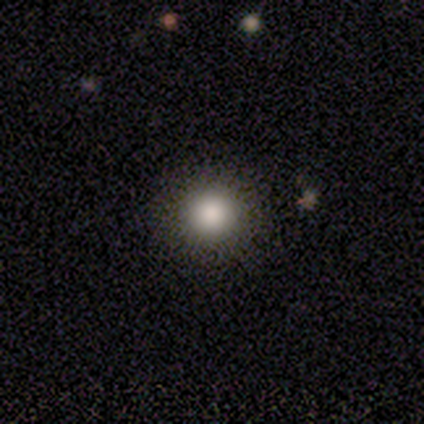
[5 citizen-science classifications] Smooth or featured? 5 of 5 (100%) said smooth. How rounded? 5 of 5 (100%) said round. Merging? 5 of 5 (100%) said none.